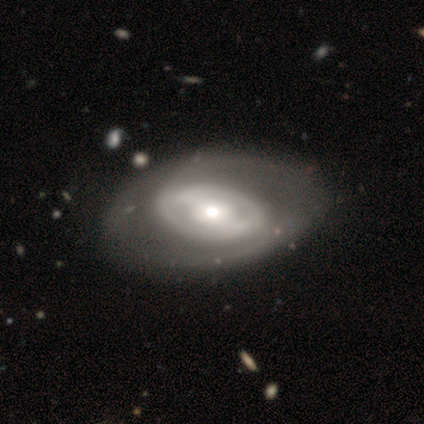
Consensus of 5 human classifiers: smooth_or_featured: featured or disk (p=0.80) [alt: smooth p=0.20]
disk_edge_on: no (p=0.75) [alt: yes p=0.25]
bar: strong (p=0.33) [tied with: weak p=0.33, no p=0.33]
has_spiral_arms: yes (p=1.00)
spiral_winding: tight (p=0.33) [tied with: medium p=0.33, loose p=0.33]
spiral_arm_count: 2 (p=0.67) [alt: 1 p=0.33]
bulge_size: moderate (p=1.00)
merging: none (p=0.80) [alt: minor disturbance p=0.20]